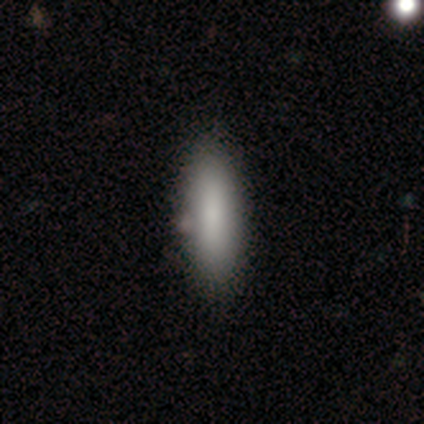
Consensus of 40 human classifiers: Overall: smooth (75%). How rounded: in between (60%; cigar-shaped 40%). Merging: none (52%).